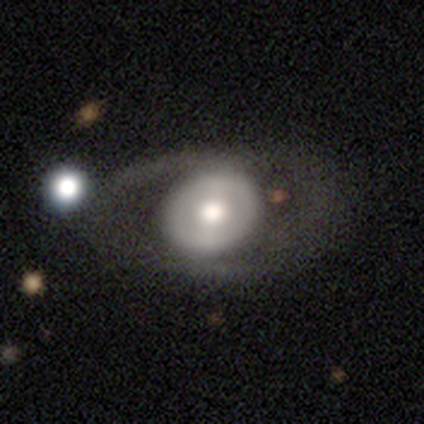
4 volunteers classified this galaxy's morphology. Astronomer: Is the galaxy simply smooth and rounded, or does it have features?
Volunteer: featured or disk — 75%.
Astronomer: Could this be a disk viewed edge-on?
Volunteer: no — 100%.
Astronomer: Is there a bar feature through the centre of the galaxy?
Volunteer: strong — 33%, tied with weak and no at 33%.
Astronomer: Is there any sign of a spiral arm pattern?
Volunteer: no — 100%.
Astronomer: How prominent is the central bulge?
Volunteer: large — 67%.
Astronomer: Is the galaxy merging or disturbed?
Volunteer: none — 75%.